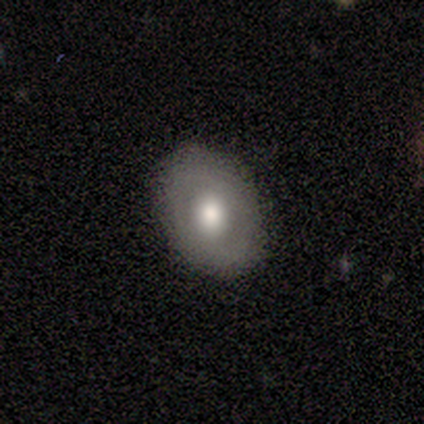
Volunteers were most divided on "smooth or featured": smooth: 60%, featured or disk: 40%, star or artifact: 0%. More confident: merging — none (100%); how rounded — in between (67%).